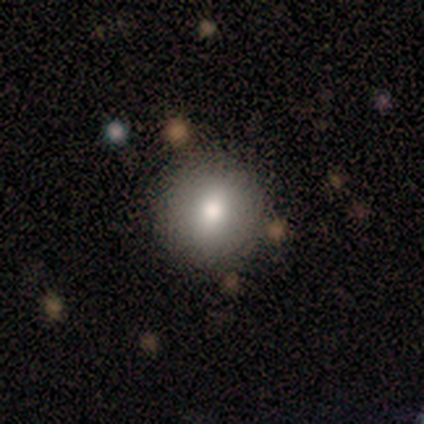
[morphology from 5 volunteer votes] type=smooth (80%); roundness=round (100%); merging=none (80%).